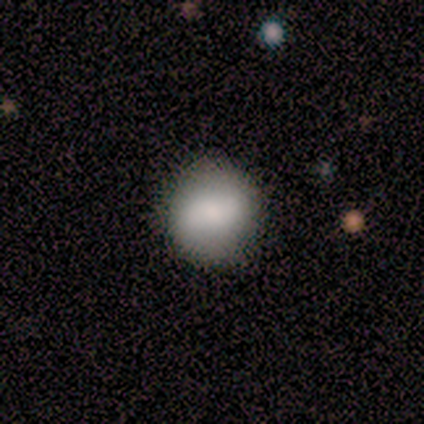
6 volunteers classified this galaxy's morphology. type=smooth (100%); roundness=round (100%); merging=none (100%).